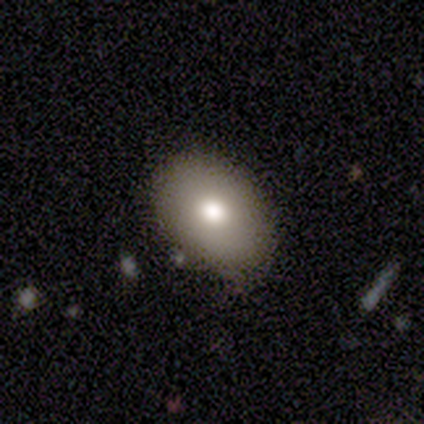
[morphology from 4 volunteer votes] smooth 75%, featured or disk 25%, star or artifact 0%. Down the decision tree: how rounded — in between (100%); merging — none (50%).